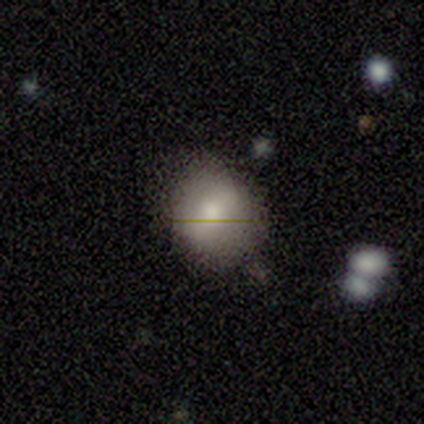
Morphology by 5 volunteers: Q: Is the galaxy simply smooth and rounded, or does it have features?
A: smooth — 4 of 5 (80%).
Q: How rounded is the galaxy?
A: round — 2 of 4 (50%, tied with in between).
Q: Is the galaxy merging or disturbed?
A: none — 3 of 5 (60%).